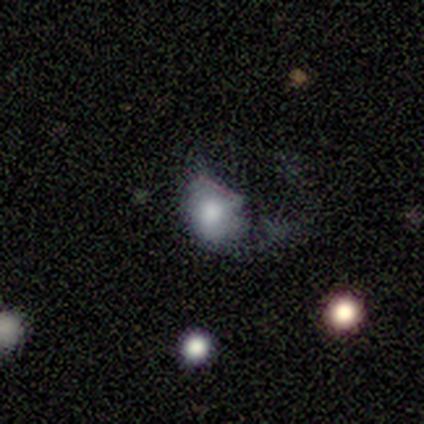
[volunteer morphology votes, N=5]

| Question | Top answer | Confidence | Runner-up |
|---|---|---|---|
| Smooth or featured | smooth | 80% | featured or disk (20%) |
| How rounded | in between | 100% | — |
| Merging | major disturbance | 60% | minor disturbance (40%) |